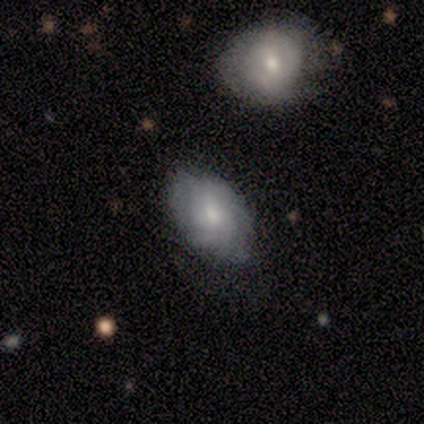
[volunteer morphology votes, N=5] This is clearly a smooth galaxy (80%). How rounded: clearly in between (100%). Merging: marginally none (40%, tied with merger).